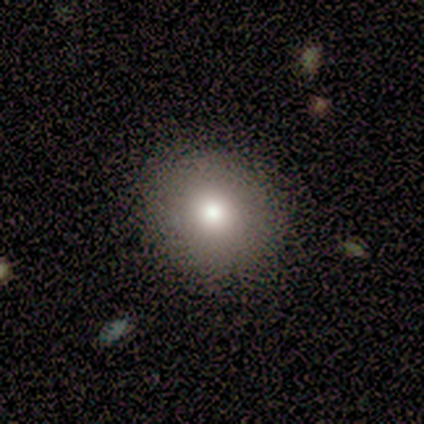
smooth 60%, featured or disk 20%, star or artifact 20%. Down the decision tree: how rounded — round (100%); merging — none (75%).